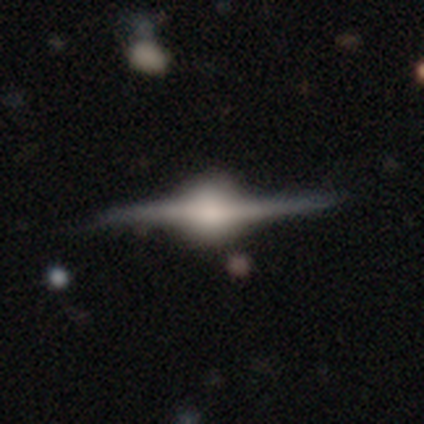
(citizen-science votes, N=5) A featured or disk galaxy (100%) viewed edge-on (100%) with a rounded central bulge (80%).

Vote fractions:
- Smooth or featured? featured or disk: 100% / smooth: 0% / star or artifact: 0%
- Edge-on disk? yes: 100% / no: 0%
- Edge-on bulge? rounded: 80% / boxy: 20% / none: 0%
- Merging? none: 60% / minor disturbance: 40% / major disturbance: 0% / merger: 0%